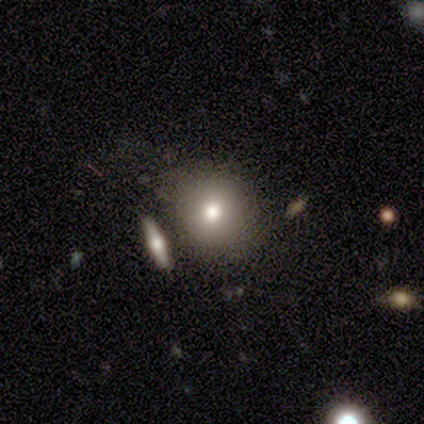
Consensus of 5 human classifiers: Smooth or featured? smooth (80%)
How rounded? round (100%)
Merging? none (75%)